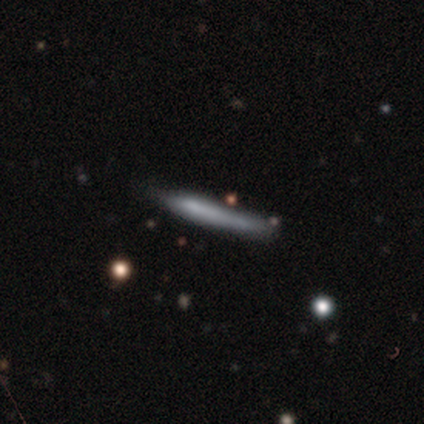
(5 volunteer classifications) Smooth or featured: smooth — 80% (featured or disk — 20%)
How rounded: cigar-shaped — 100%
Merging: none — 60% (minor disturbance — 40%)